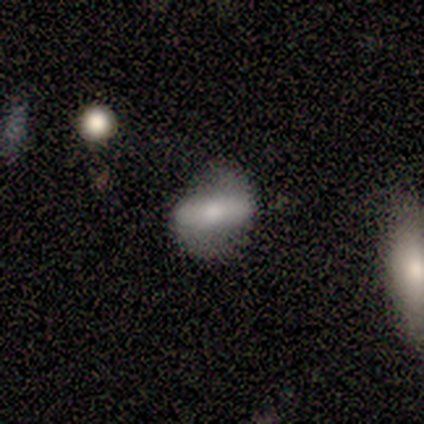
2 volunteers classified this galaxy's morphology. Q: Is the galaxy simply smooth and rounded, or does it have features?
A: smooth — 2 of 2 (100%).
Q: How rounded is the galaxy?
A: round — 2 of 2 (100%).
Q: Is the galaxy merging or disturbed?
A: none — 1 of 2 (50%, tied with minor disturbance).